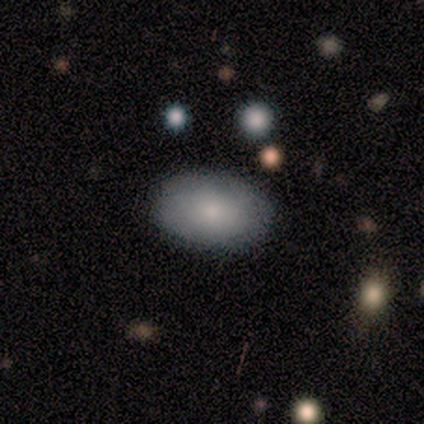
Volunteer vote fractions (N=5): Smooth or featured: smooth — 100%
How rounded: in between — 80% (round — 20%)
Merging: none — 100%